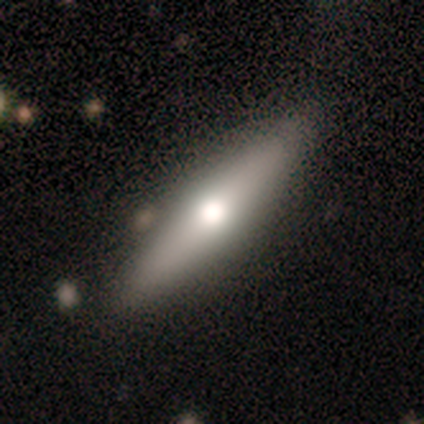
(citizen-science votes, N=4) Overall: smooth (75%). How rounded: cigar-shaped (100%). Merging: none (100%).